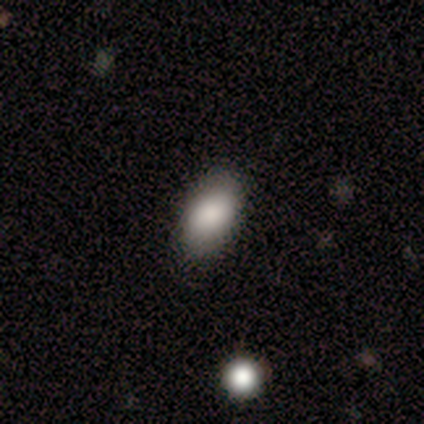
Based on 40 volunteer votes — This appears to be a smooth galaxy with no disk features (80%) that is in between round and cigar-shaped (97%). Merging: none (91%).